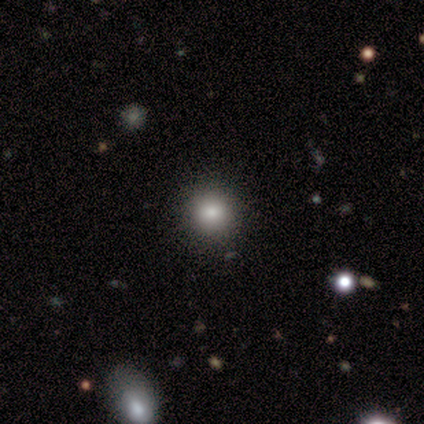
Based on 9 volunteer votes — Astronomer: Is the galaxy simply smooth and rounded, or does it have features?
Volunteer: smooth — 67%.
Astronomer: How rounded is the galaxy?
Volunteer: round — 100%.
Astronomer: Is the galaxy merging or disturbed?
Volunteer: none — 88%.